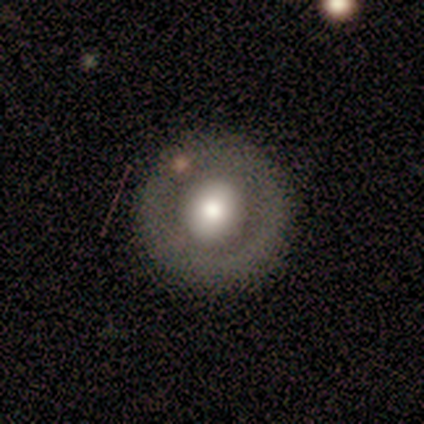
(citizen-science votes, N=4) A featured or disk galaxy (75%) with no bar (100%), no spiral arms (100%) and a moderate central bulge (100%). Merging: none (100%).